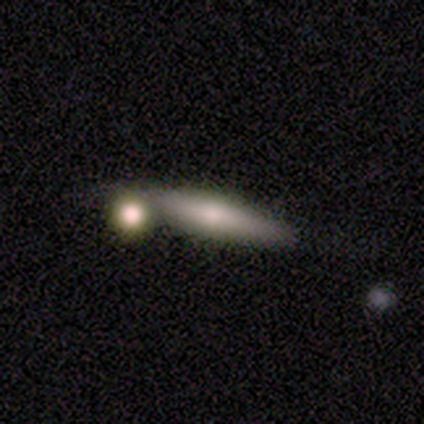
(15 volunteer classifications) This appears to be a smooth galaxy with no disk features (87%) that is cigar-shaped (69%). Merging: none (64%).